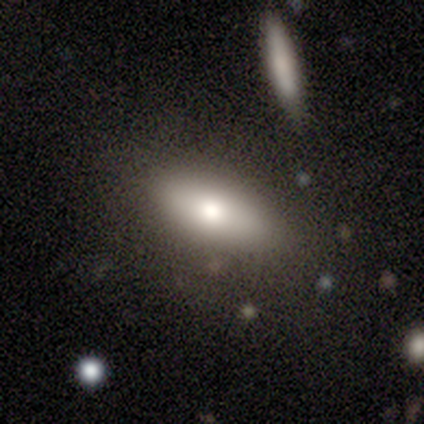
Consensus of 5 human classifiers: This appears to be a smooth galaxy with no disk features (100%) that is cigar-shaped (60%). Merging: none (100%).